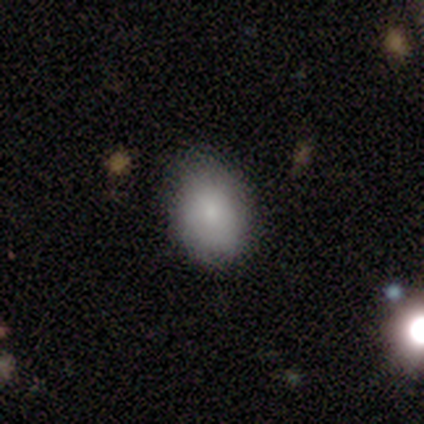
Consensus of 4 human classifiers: Volunteers were most divided on "merging": none: 75%, minor disturbance: 25%, major disturbance: 0%, merger: 0%. More confident: smooth or featured — smooth (100%); how rounded — in between (100%).